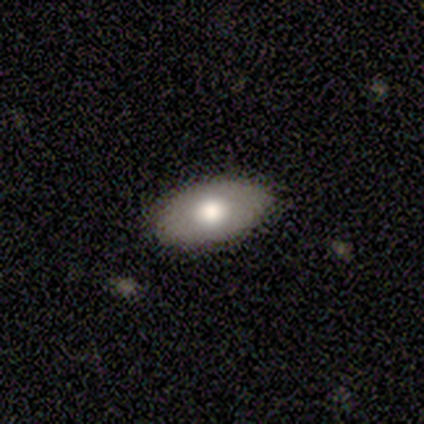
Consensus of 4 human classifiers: A smooth galaxy with no disk features (75%) that is in between round and cigar-shaped (100%). Merging: none (100%).